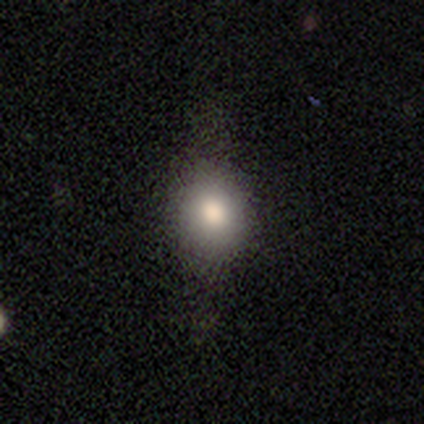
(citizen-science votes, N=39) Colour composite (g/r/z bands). It shows a smooth galaxy with no disk features (64%) that is round (72%). Merging: none (68%).